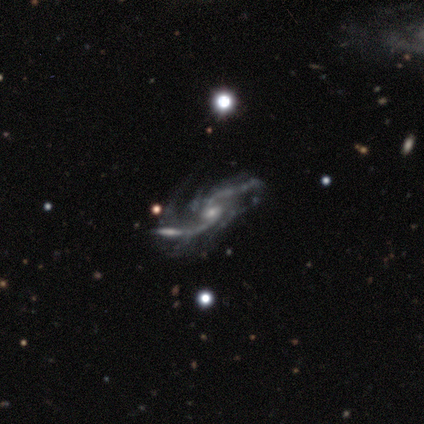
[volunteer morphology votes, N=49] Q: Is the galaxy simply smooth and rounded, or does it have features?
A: featured or disk — 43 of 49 (88%).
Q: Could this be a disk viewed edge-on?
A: no — 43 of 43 (100%).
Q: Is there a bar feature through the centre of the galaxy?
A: no — 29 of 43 (67%).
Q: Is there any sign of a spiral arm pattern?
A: yes — 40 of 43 (93%).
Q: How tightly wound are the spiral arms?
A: loose — 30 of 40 (75%).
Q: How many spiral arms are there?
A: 2 — 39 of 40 (98%).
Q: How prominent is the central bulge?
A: small — 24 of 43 (56%).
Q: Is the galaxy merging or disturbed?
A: none — 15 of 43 (35%).